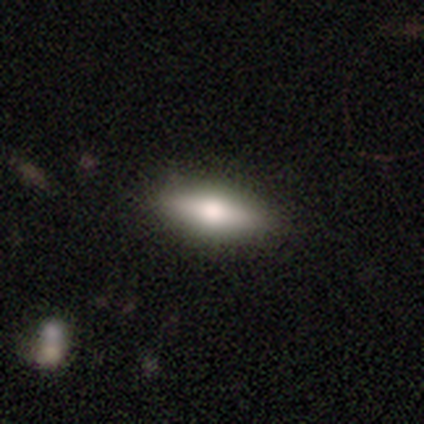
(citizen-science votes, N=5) smooth_or_featured: smooth (p=0.60) [alt: featured or disk p=0.40]
how_rounded: in between (p=1.00)
merging: none (p=0.60) [alt: minor disturbance p=0.40]